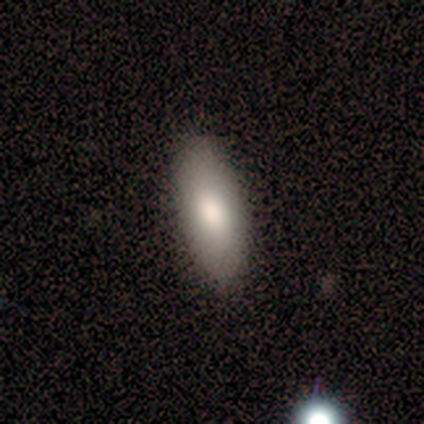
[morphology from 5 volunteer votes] Smooth or featured? smooth (100%)
How rounded? in between (100%)
Merging? none (100%)